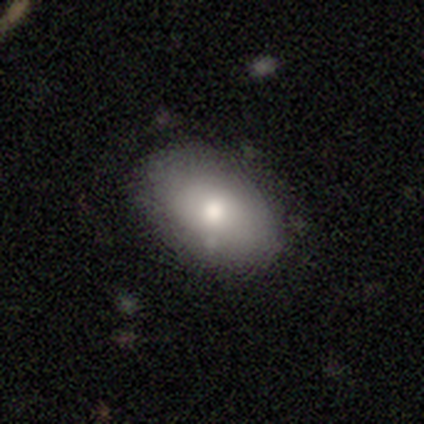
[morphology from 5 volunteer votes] This appears to be a smooth galaxy with no disk features (80%) that is in between round and cigar-shaped (75%). Merging: none (75%).